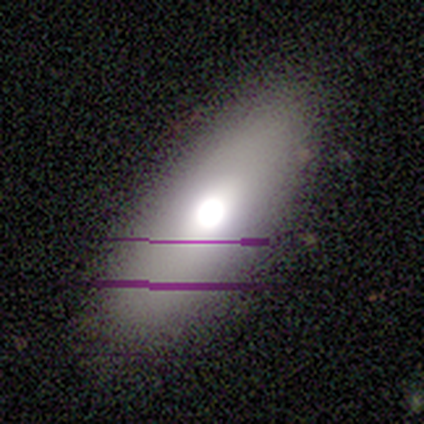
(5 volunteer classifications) Smooth or featured?
  - smooth: 100% *
  - featured or disk: 0%
  - star or artifact: 0%
How rounded?
  - in between: 100% *
  - round: 0%
  - cigar-shaped: 0%
Merging?
  - none: 100% *
  - minor disturbance: 0%
  - major disturbance: 0%
  - merger: 0%